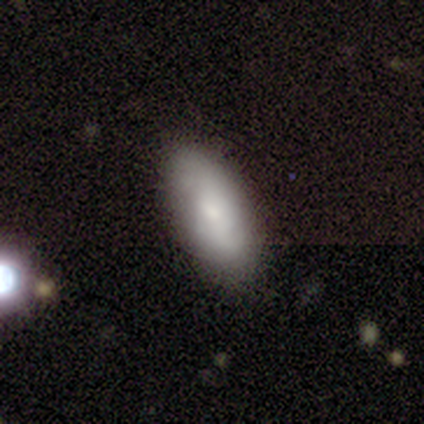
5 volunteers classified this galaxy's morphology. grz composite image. It shows a smooth galaxy with no disk features (60%) that is in between round and cigar-shaped (100%). Merging: none (80%).